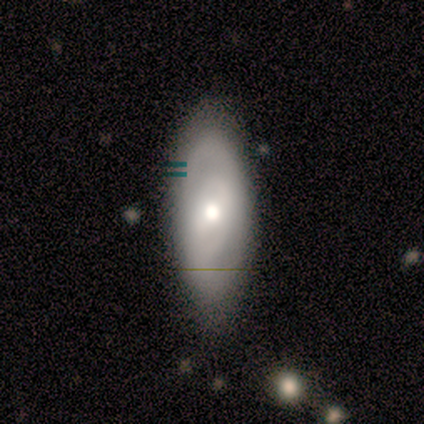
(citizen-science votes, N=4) featured or disk 75%, smooth 25%, star or artifact 0%. Down the decision tree: edge-on disk — no (100%); bar — strong (33%, tied with weak and no); spiral arms — yes (67%); spiral arm count — 2 (50%, tied with can't tell); spiral winding — tight (100%); bulge size — moderate (100%); merging — none (75%).